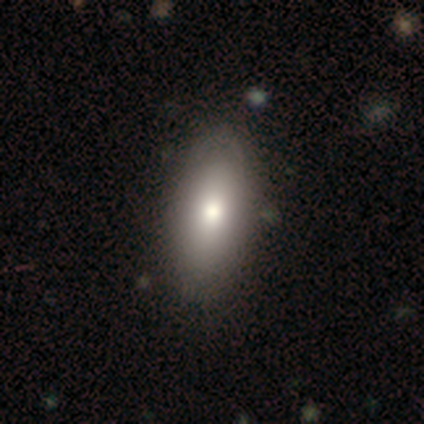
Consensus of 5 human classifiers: Q: Smooth or featured?
A: featured or disk (60%); runner-up: smooth (40%)
Q: Edge-on disk?
A: no (100%)
Q: Bar?
A: no (100%)
Q: Spiral arms?
A: no (100%)
Q: Bulge size?
A: moderate (67%); runner-up: large (33%)
Q: Merging?
A: none (80%); runner-up: minor disturbance (20%)